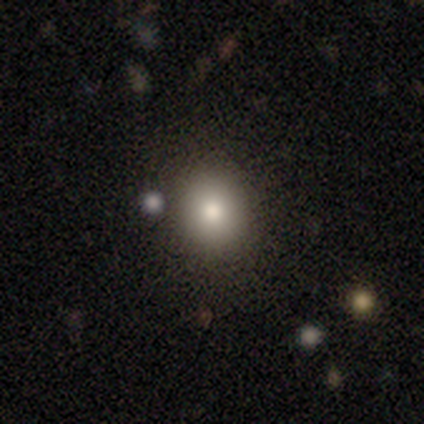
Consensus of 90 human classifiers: Morphology: type=smooth (74%); roundness=round (70%); merging=none (81%).